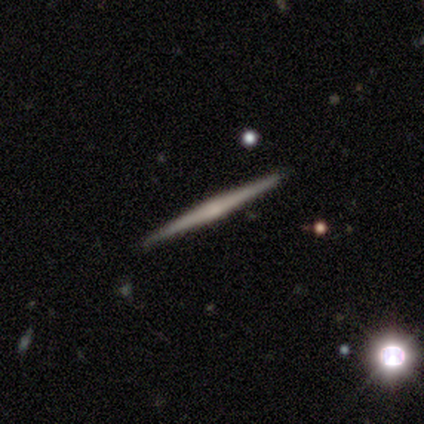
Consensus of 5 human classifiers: Q: Smooth or featured?
A: featured or disk (100%)
Q: Edge-on disk?
A: yes (100%)
Q: Edge-on bulge?
A: rounded (60%); runner-up: none (40%)
Q: Merging?
A: none (100%)